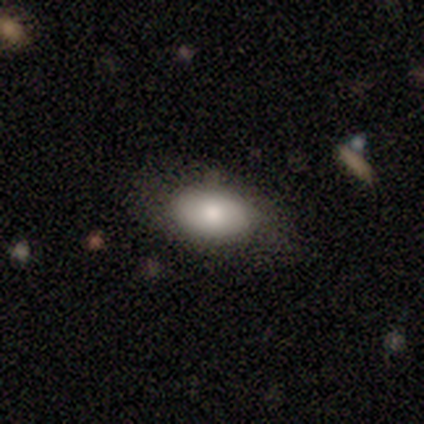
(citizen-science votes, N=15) Smooth or featured? 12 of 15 (80%) said smooth. How rounded? 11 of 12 (92%) said in between. Merging? 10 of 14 (71%) said none.